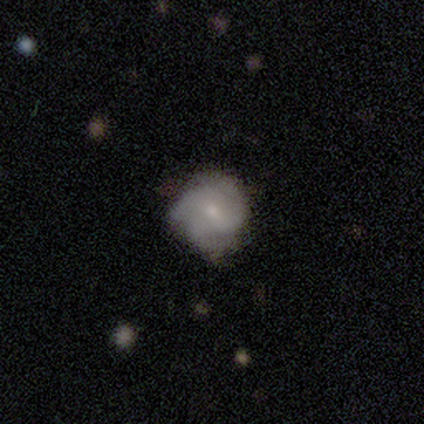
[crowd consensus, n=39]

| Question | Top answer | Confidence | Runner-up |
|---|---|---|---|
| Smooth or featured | featured or disk | 69% | smooth (28%) |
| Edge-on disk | no | 100% | — |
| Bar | no | 52% | weak (44%) |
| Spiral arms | yes | 85% | no (15%) |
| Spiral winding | medium | 43% | tight (39%) |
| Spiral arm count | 3 | 65% | can't tell (26%) |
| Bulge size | small | 70% | moderate (22%) |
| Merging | none | 58% | minor disturbance (8%) |